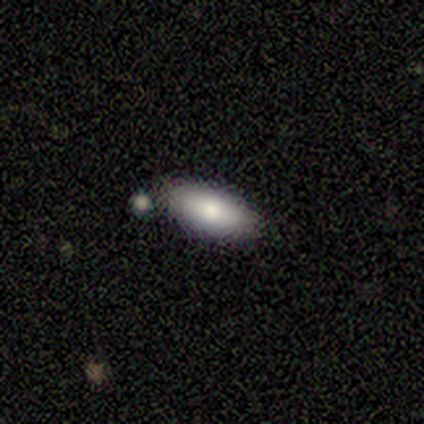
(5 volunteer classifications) Overall: smooth (80%). How rounded: in between (75%). Merging: none (100%).